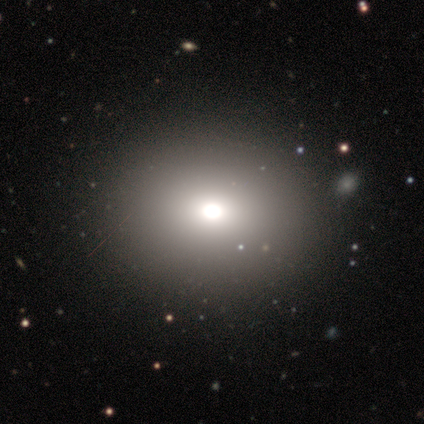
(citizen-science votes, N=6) Overall: smooth (50%, tied with star or artifact). How rounded: in between (67%; cigar-shaped 33%). Merging: none (67%; minor disturbance 33%).